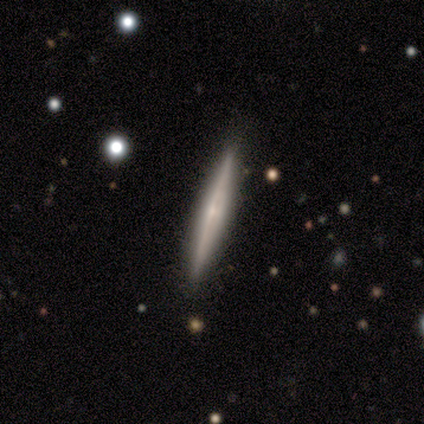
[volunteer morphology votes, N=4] smooth-or-featured: smooth: 50% | featured or disk: 25% | star or artifact: 25%
  how-rounded: cigar-shaped: 100% | round: 0% | in between: 0%
  merging: none: 100% | minor disturbance: 0% | major disturbance: 0% | merger: 0%